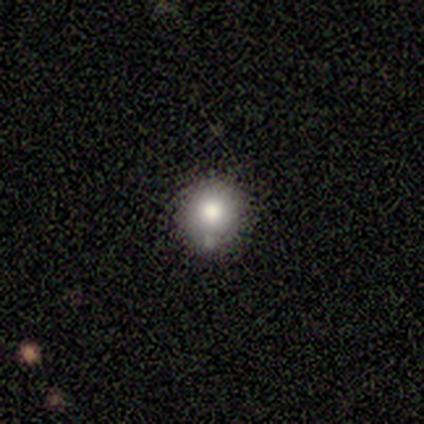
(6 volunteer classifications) smooth 83%, featured or disk 17%, star or artifact 0%. Down the decision tree: how rounded — round (100%); merging — none (67%).